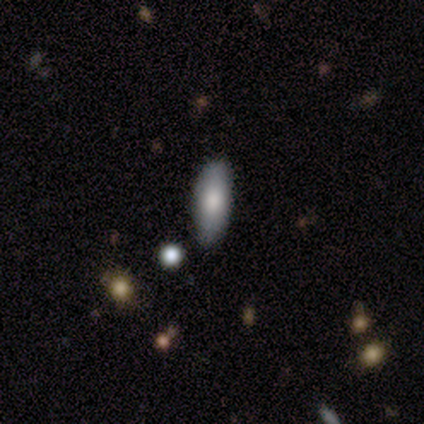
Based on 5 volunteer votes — Smooth or featured?
  - smooth: 40% * (tied)
  - star or artifact: 40% * (tied)
  - featured or disk: 20%
How rounded?
  - in between: 50% * (tied)
  - cigar-shaped: 50% * (tied)
  - round: 0%
Merging?
  - none: 67% *
  - minor disturbance: 33%
  - major disturbance: 0%
  - merger: 0%